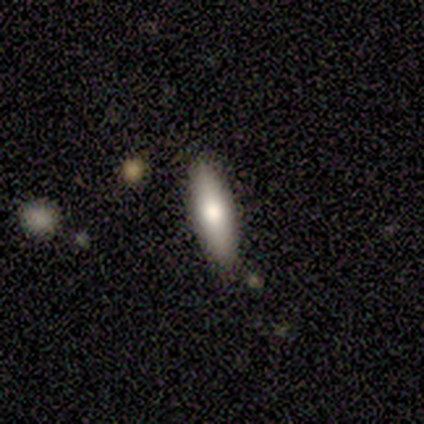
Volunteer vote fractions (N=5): A smooth galaxy with no disk features (80%) that is in between round and cigar-shaped (50%, tied with cigar-shaped).

Vote fractions:
- Smooth or featured? smooth: 80% / featured or disk: 20% / star or artifact: 0%
- How rounded? in between: 50% (tied) / cigar-shaped: 50% (tied) / round: 0%
- Merging? none: 60% / minor disturbance: 40% / major disturbance: 0% / merger: 0%